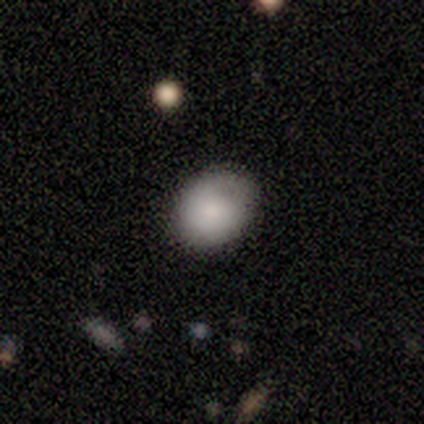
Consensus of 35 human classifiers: Overall: smooth (83%). How rounded: round (52%; in between 48%). Merging: none (77%).